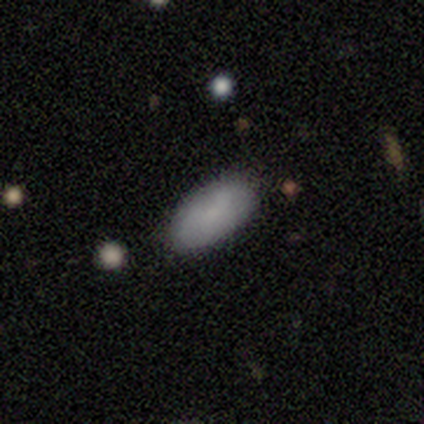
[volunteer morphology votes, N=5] Q: Smooth or featured?
A: smooth (100%)
Q: How rounded?
A: in between (100%)
Q: Merging?
A: none (60%); runner-up: minor disturbance (40%)